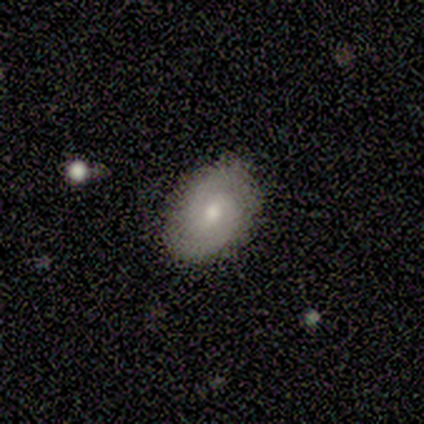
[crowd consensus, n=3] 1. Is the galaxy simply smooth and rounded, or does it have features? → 67% featured or disk, 33% star or artifact, 0% smooth.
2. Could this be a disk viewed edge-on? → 100% no, 0% yes.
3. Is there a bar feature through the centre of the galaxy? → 100% weak, 0% strong, 0% no.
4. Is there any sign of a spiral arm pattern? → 50% yes (tied), 50% no (tied).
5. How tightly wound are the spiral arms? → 100% tight, 0% medium, 0% loose.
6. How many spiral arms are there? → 100% 2, 0% 1, 0% 3, 0% 4, 0% more than 4, 0% can't tell.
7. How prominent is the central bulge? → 50% moderate (tied), 50% small (tied), 0% dominant, 0% large, 0% none.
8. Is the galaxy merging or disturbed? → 100% none, 0% minor disturbance, 0% major disturbance, 0% merger.